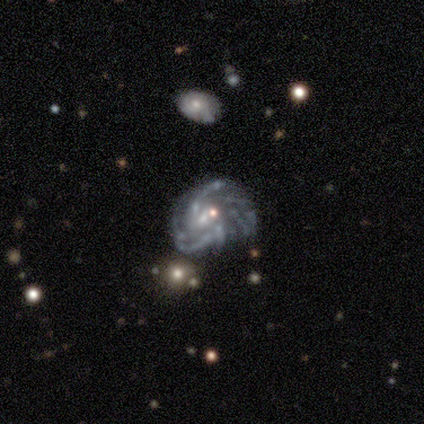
smooth_or_featured: featured or disk (p=0.80) [alt: star or artifact p=0.20]
disk_edge_on: no (p=1.00)
bar: no (p=1.00)
has_spiral_arms: yes (p=0.75) [alt: no p=0.25]
spiral_winding: tight (p=0.33) [tied with: medium p=0.33, loose p=0.33]
spiral_arm_count: more than 4 (p=0.67) [alt: can't tell p=0.33]
bulge_size: none (p=0.50) [alt: moderate p=0.25]
merging: minor disturbance (p=0.50) [alt: none p=0.25]